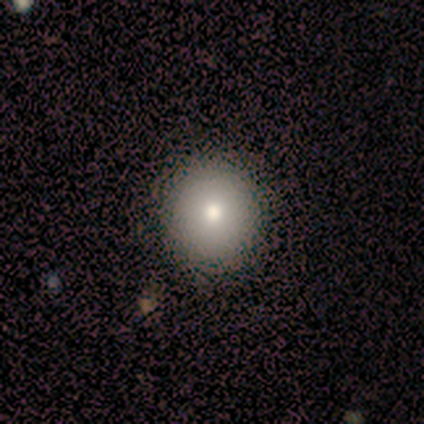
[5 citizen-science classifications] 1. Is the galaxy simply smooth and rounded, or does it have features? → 60% smooth, 20% featured or disk, 20% star or artifact.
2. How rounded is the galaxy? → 100% round, 0% in between, 0% cigar-shaped.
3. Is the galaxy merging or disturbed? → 100% none, 0% minor disturbance, 0% major disturbance, 0% merger.